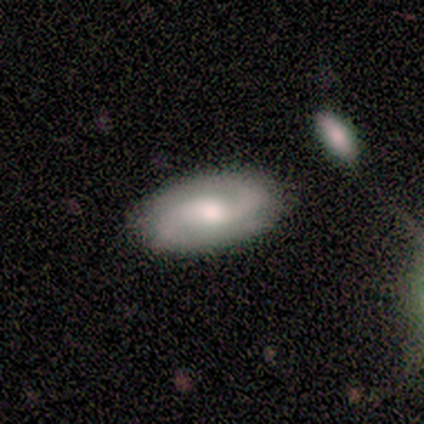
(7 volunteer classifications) Smooth or featured? featured or disk (86%)
Edge-on disk? no (100%)
Bar? weak (50%, tied with no)
Spiral arms? yes (100%)
Spiral winding? loose (50%)
Spiral arm count? 2 (100%)
Bulge size? moderate (83%)
Merging? none (86%)